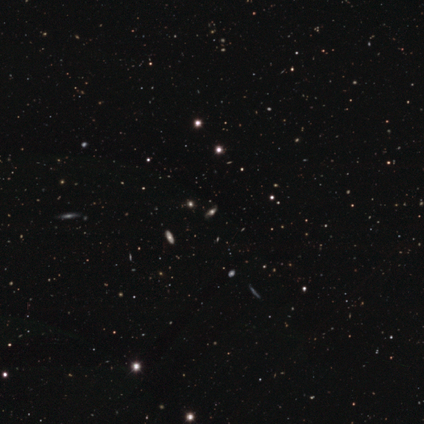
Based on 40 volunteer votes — Smooth or featured?
  - star or artifact: 55% *
  - smooth: 25%
  - featured or disk: 20%